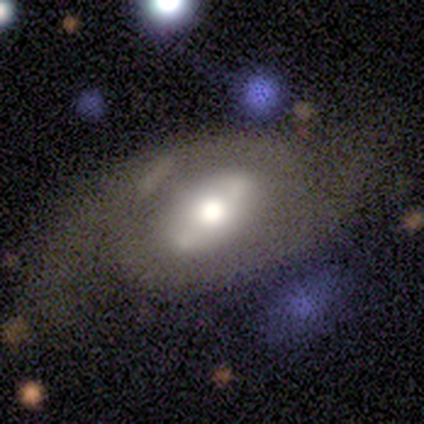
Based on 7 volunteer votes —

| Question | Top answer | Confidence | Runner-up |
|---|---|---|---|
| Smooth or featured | featured or disk | 86% | smooth (14%) |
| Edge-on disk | no | 100% | — |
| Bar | strong | 33% | tied: weak (33%), no (33%) |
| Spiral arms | yes | 83% | no (17%) |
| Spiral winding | medium | 60% | tight (20%) |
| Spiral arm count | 2 | 100% | — |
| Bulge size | large | 50% | tied: moderate (50%) |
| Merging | none | 43% | tied: major disturbance (43%) |